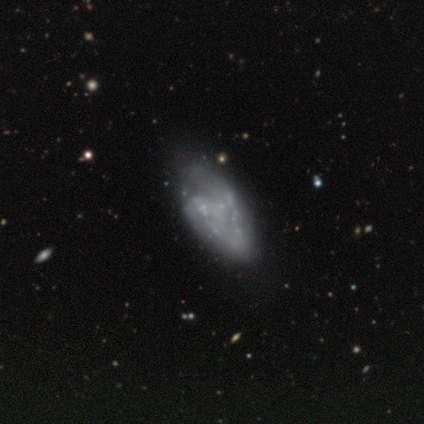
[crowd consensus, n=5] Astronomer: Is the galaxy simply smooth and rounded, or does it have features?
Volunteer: featured or disk — 100%.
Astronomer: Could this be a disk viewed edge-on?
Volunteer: no — 80%.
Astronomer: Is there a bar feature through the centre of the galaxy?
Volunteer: no — 75%.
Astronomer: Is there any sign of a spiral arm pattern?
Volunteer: yes — 50%, tied with no at 50%.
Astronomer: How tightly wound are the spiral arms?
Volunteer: tight — 100%.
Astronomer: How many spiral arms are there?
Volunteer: can't tell — 100%.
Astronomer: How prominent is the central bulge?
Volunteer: none — 75%.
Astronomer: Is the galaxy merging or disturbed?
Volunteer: none — 40%, tied with major disturbance at 40%.